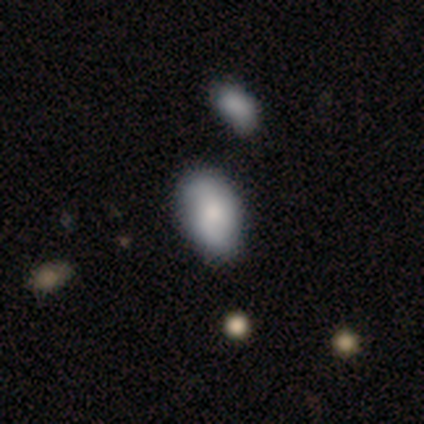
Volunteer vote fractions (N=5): Smooth or featured? 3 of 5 (60%) said smooth. How rounded? 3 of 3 (100%) said in between. Merging? 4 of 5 (80%) said none.